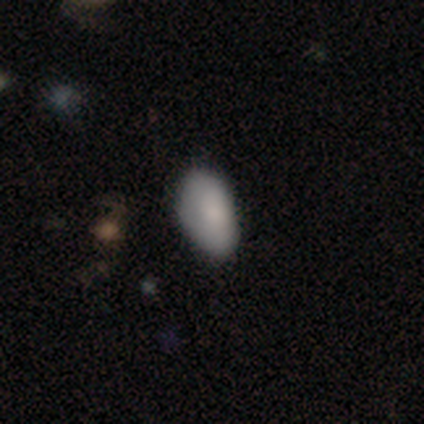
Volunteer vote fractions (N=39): smooth-or-featured: smooth: 87% | featured or disk: 8% | star or artifact: 5%
  how-rounded: in between: 94% | round: 6% | cigar-shaped: 0%
  merging: none: 59% | minor disturbance: 35% | major disturbance: 3% | merger: 3%